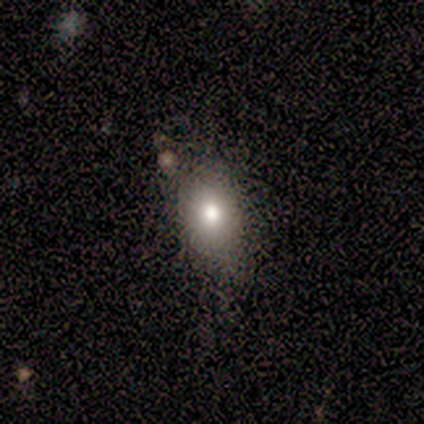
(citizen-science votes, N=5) Morphology: type=smooth (80%); roundness=in between (75%); merging=none (50%).